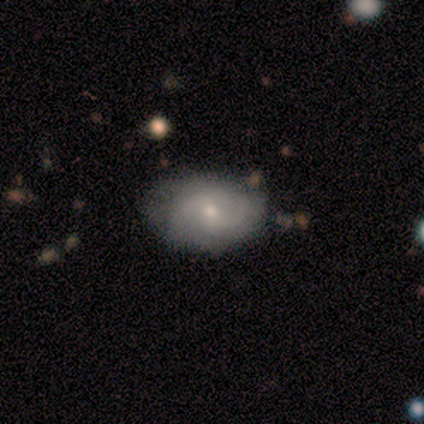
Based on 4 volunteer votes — smooth 50% (tied), featured or disk 50% (tied), star or artifact 0%. Down the decision tree: how rounded — in between (100%); merging — minor disturbance (50%).